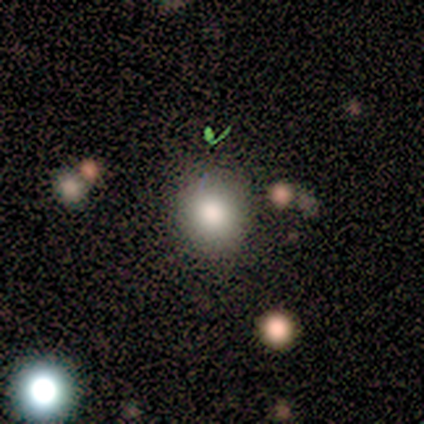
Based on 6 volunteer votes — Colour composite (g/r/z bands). It shows a smooth galaxy with no disk features (67%) that is round (100%). Merging: none (100%).